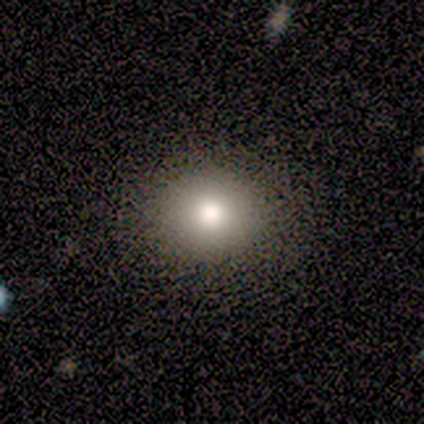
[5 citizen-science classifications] Morphology: type=smooth (100%); roundness=round (60%); merging=none (100%).